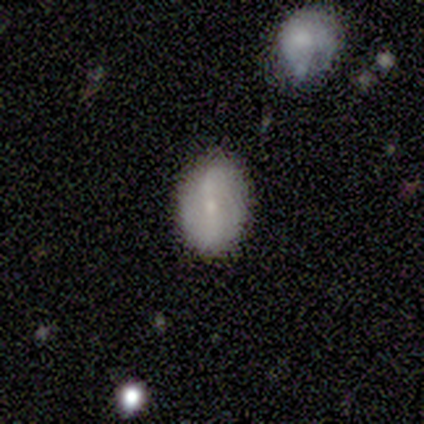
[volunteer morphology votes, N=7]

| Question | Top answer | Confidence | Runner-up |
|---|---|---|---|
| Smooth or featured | featured or disk | 57% | smooth (29%) |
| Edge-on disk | no | 100% | — |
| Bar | strong | 50% | weak (25%) |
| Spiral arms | yes | 75% | no (25%) |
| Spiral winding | loose | 100% | — |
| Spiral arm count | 2 | 100% | — |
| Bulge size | small | 100% | — |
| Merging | none | 100% | — |